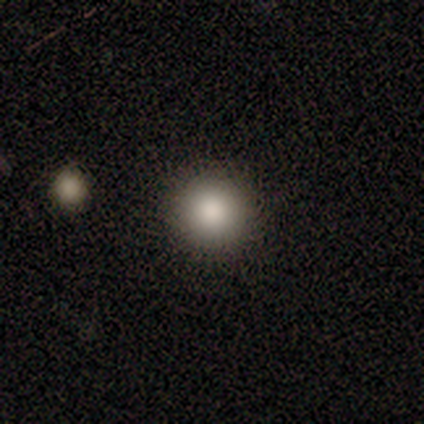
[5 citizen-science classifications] Smooth or featured?
  - smooth: 100% *
  - featured or disk: 0%
  - star or artifact: 0%
How rounded?
  - round: 100% *
  - in between: 0%
  - cigar-shaped: 0%
Merging?
  - none: 80% *
  - minor disturbance: 20%
  - major disturbance: 0%
  - merger: 0%